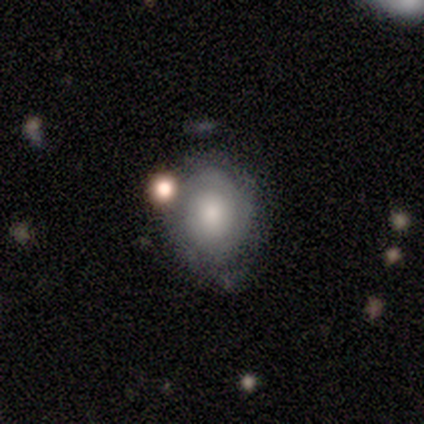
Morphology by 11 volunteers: Smooth or featured? featured or disk (55%)
Edge-on disk? no (100%)
Bar? no (100%)
Spiral arms? yes (83%)
Spiral winding? medium (60%)
Spiral arm count? can't tell (80%)
Bulge size? large (67%)
Merging? none (64%)